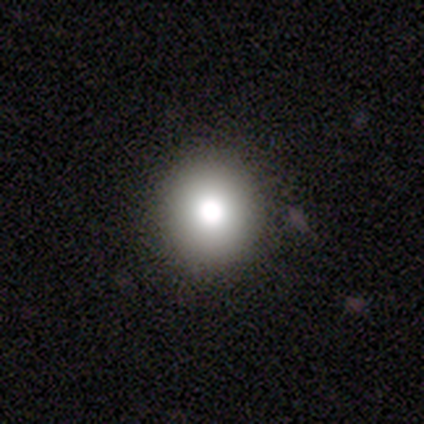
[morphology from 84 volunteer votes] smooth_or_featured: smooth (p=0.76) [alt: featured or disk p=0.13]
how_rounded: round (p=0.89) [alt: in between p=0.11]
merging: none (p=0.93) [alt: minor disturbance p=0.04]